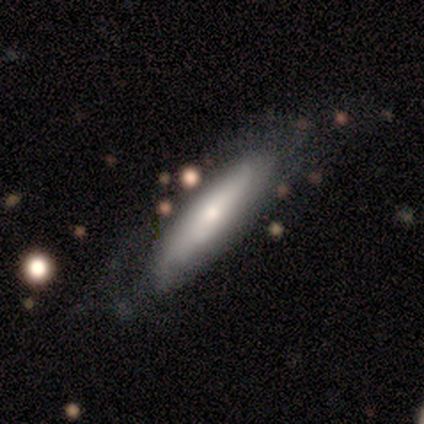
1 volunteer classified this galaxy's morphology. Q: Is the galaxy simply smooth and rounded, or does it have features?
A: smooth — 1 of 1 (100%).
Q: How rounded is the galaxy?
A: cigar-shaped — 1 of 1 (100%).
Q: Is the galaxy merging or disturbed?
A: none — 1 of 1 (100%).